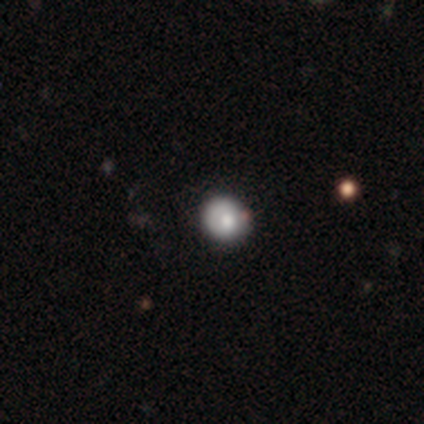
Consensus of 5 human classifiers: Smooth or featured: smooth — 80% (star or artifact — 20%)
How rounded: round — 100%
Merging: none — 100%